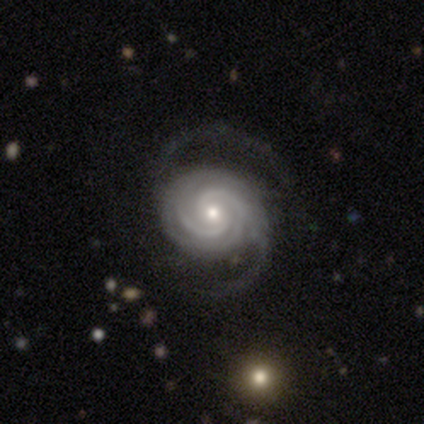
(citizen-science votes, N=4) Smooth or featured?
  - featured or disk: 100% *
  - smooth: 0%
  - star or artifact: 0%
Edge-on disk?
  - no: 100% *
  - yes: 0%
Bar?
  - weak: 50% * (tied)
  - no: 50% * (tied)
  - strong: 0%
Spiral arms?
  - yes: 100% *
  - no: 0%
Spiral winding?
  - tight: 100% *
  - medium: 0%
  - loose: 0%
Spiral arm count?
  - 3: 50% *
  - 2: 25%
  - 4: 25%
  - 1: 0%
  - more than 4: 0%
  - can't tell: 0%
Bulge size?
  - moderate: 75% *
  - small: 25%
  - dominant: 0%
  - large: 0%
  - none: 0%
Merging?
  - major disturbance: 50% *
  - none: 25%
  - minor disturbance: 25%
  - merger: 0%